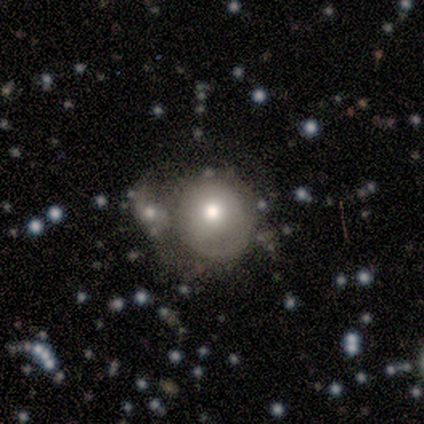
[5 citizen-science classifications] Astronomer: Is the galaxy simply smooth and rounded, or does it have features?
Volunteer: smooth — 80%.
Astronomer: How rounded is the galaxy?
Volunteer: round — 75%.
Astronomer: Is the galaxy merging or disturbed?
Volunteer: none — 50%.